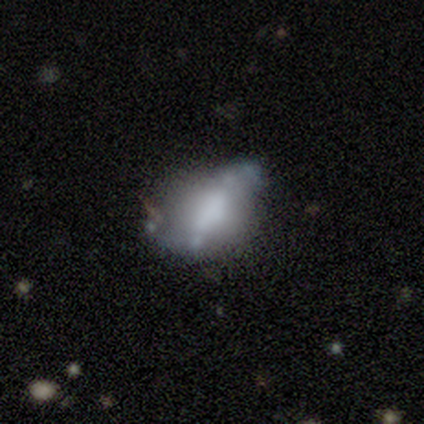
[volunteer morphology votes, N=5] A featured or disk galaxy (60%) with no bar (67%), no spiral arms (100%) and no central bulge (67%). Merging: none (33%, tied with major disturbance and merger).